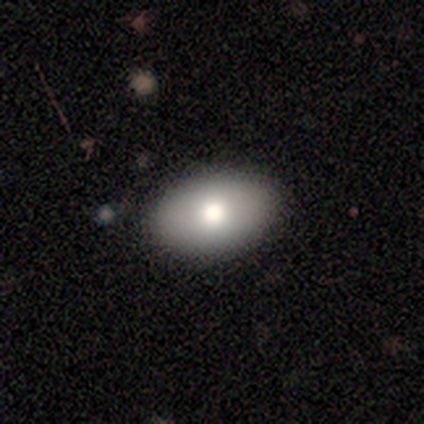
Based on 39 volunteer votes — Smooth or featured? 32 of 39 (82%) said smooth. How rounded? 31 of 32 (97%) said in between. Merging? 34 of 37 (92%) said none.